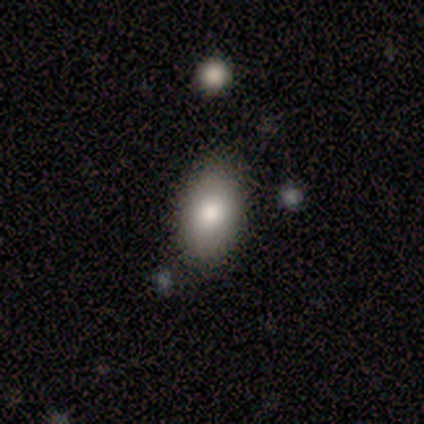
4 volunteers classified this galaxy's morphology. Smooth or featured?
  - smooth: 50% * (tied)
  - featured or disk: 50% * (tied)
  - star or artifact: 0%
How rounded?
  - in between: 100% *
  - round: 0%
  - cigar-shaped: 0%
Merging?
  - none: 75% *
  - minor disturbance: 25%
  - major disturbance: 0%
  - merger: 0%